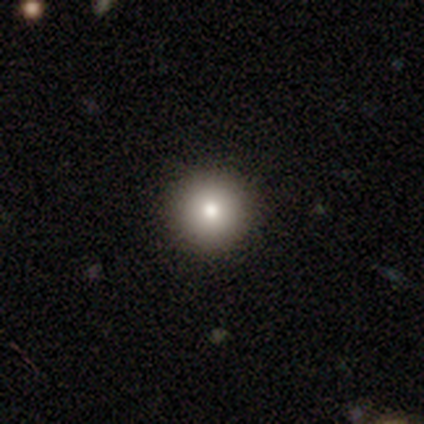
This is clearly a smooth galaxy (87%). How rounded: clearly round (100%). Merging: clearly none (94%).